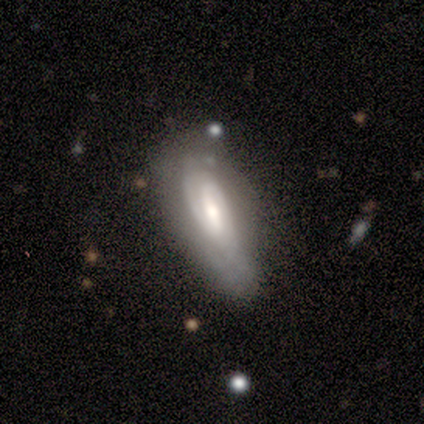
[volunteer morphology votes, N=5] Smooth or featured?
  - featured or disk: 60% *
  - smooth: 40%
  - star or artifact: 0%
Edge-on disk?
  - no: 67% *
  - yes: 33%
Bar?
  - weak: 50% * (tied)
  - no: 50% * (tied)
  - strong: 0%
Spiral arms?
  - yes: 100% *
  - no: 0%
Spiral winding?
  - tight: 50% * (tied)
  - loose: 50% * (tied)
  - medium: 0%
Spiral arm count?
  - 2: 50% * (tied)
  - can't tell: 50% * (tied)
  - 1: 0%
  - 3: 0%
  - 4: 0%
  - more than 4: 0%
Bulge size?
  - moderate: 50% * (tied)
  - none: 50% * (tied)
  - dominant: 0%
  - large: 0%
  - small: 0%
Merging?
  - none: 40% * (tied)
  - minor disturbance: 40% * (tied)
  - merger: 20%
  - major disturbance: 0%